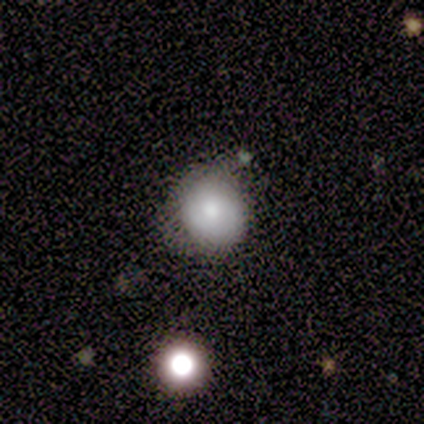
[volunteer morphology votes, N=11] Q: Smooth or featured?
A: smooth (82%); runner-up: featured or disk (18%)
Q: How rounded?
A: round (89%); runner-up: in between (11%)
Q: Merging?
A: none (73%); runner-up: minor disturbance (27%)